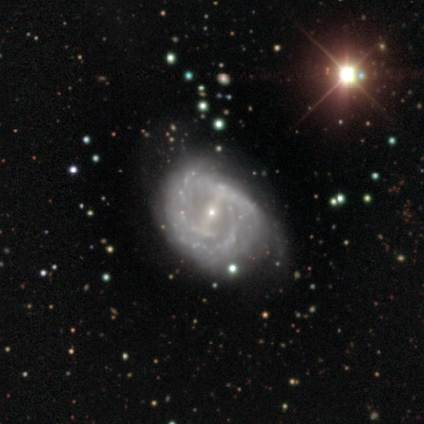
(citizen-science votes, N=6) A featured or disk galaxy (100%) with a strong bar (50%, tied with weak), 2 (67%) medium (50%) spiral arms (100%) and a small central bulge (100%).

Vote fractions:
- Smooth or featured? featured or disk: 100% / smooth: 0% / star or artifact: 0%
- Edge-on disk? no: 100% / yes: 0%
- Bar? strong: 50% (tied) / weak: 50% (tied) / no: 0%
- Spiral arms? yes: 100% / no: 0%
- Spiral winding? medium: 50% / tight: 33% / loose: 17%
- Spiral arm count? 2: 67% / 3: 17% / can't tell: 17% / 1: 0% / 4: 0% / more than 4: 0%
- Bulge size? small: 100% / dominant: 0% / large: 0% / moderate: 0% / none: 0%
- Merging? none: 50% / minor disturbance: 33% / merger: 17% / major disturbance: 0%